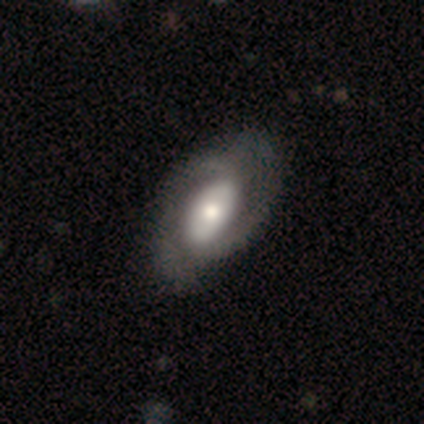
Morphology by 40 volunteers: Overall: featured or disk (80%). Edge-on disk: no (94%). Bar: no (73%). Spiral arms: yes (80%). Spiral arm count: 2 (75%). Spiral winding: tight (62%). Bulge size: moderate (47%; large 27%). Merging: none (55%).